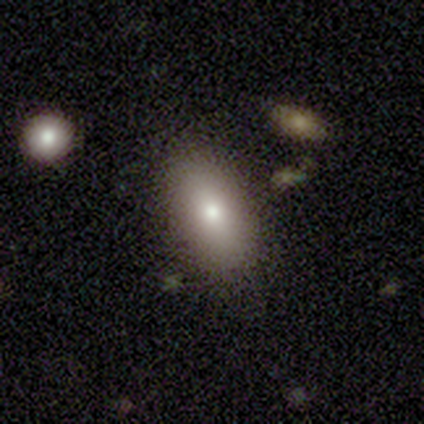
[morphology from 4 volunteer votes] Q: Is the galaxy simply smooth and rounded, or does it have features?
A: smooth — 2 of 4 (50%, tied with featured or disk).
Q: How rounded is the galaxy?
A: in between — 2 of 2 (100%).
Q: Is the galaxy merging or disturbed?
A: none — 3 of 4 (75%).